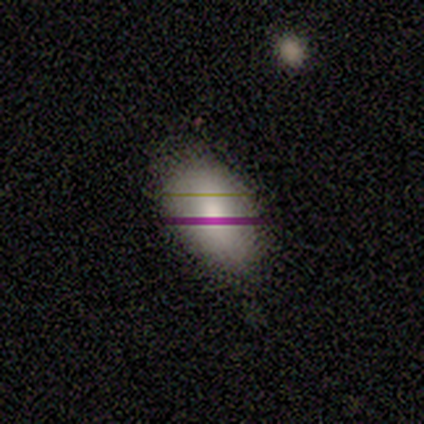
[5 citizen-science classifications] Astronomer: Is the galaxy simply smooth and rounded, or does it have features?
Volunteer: smooth — 60%.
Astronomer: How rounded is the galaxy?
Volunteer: in between — 100%.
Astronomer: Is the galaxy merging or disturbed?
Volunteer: none — 75%.